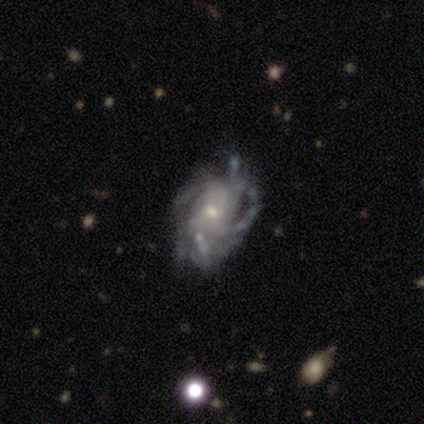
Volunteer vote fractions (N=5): Smooth or featured?
  - featured or disk: 80% *
  - star or artifact: 20%
  - smooth: 0%
Edge-on disk?
  - no: 100% *
  - yes: 0%
Bar?
  - weak: 50% * (tied)
  - no: 50% * (tied)
  - strong: 0%
Spiral arms?
  - yes: 100% *
  - no: 0%
Spiral winding?
  - medium: 75% *
  - tight: 25%
  - loose: 0%
Spiral arm count?
  - can't tell: 50% *
  - 2: 25%
  - 3: 25%
  - 1: 0%
  - 4: 0%
  - more than 4: 0%
Bulge size?
  - moderate: 50% * (tied)
  - small: 50% * (tied)
  - dominant: 0%
  - large: 0%
  - none: 0%
Merging?
  - none: 50% *
  - minor disturbance: 25%
  - major disturbance: 25%
  - merger: 0%